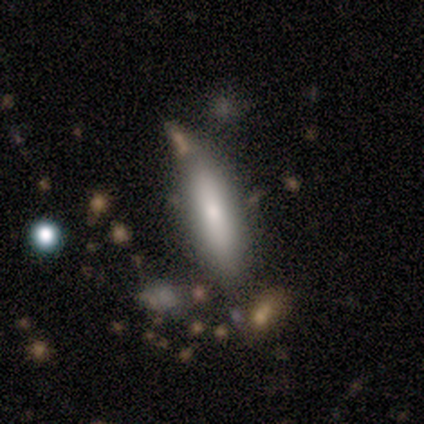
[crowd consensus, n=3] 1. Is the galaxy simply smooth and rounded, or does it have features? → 67% smooth, 33% featured or disk, 0% star or artifact.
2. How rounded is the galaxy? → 100% cigar-shaped, 0% round, 0% in between.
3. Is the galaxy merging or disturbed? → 67% minor disturbance, 33% major disturbance, 0% none, 0% merger.